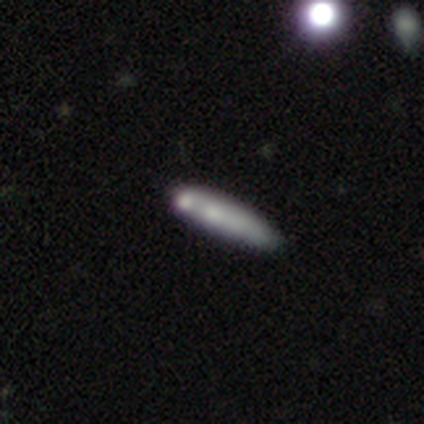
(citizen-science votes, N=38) This appears to be a smooth galaxy with no disk features (55%) that is cigar-shaped (81%). Merging: none (50%).